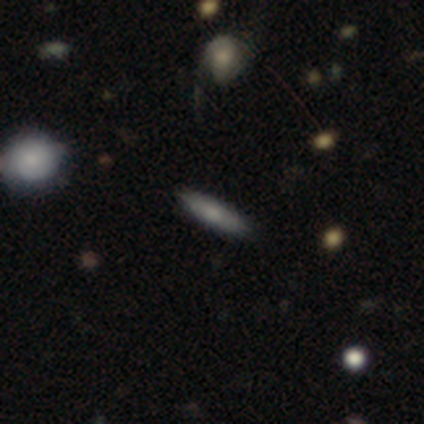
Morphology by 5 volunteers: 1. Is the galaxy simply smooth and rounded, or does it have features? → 60% featured or disk, 20% smooth, 20% star or artifact.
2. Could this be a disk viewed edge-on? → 67% yes, 33% no.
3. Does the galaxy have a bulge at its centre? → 50% none (tied), 50% rounded (tied), 0% boxy.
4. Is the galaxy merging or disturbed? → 50% none (tied), 50% minor disturbance (tied), 0% major disturbance, 0% merger.